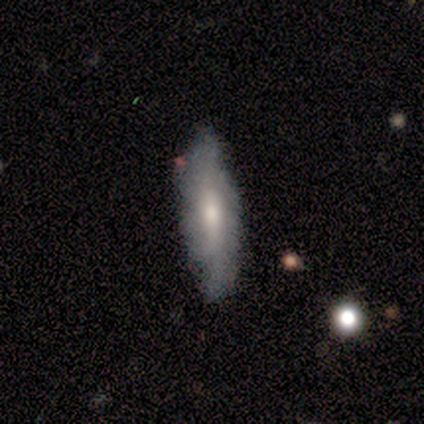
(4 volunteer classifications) Q: Smooth or featured?
A: featured or disk (75%); runner-up: smooth (25%)
Q: Edge-on disk?
A: no (67%); runner-up: yes (33%)
Q: Bar?
A: weak (50%); tied with: no (50%)
Q: Spiral arms?
A: yes (50%); tied with: no (50%)
Q: Spiral winding?
A: tight (100%)
Q: Spiral arm count?
A: can't tell (100%)
Q: Bulge size?
A: moderate (50%); tied with: small (50%)
Q: Merging?
A: minor disturbance (75%); runner-up: none (25%)